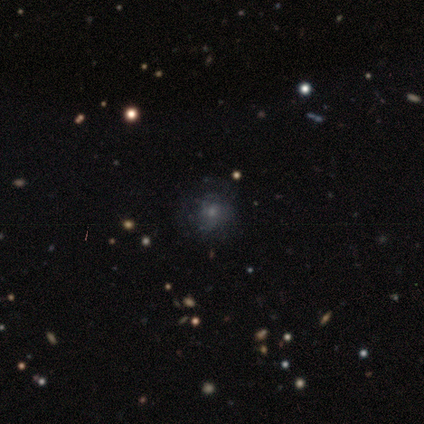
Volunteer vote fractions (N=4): smooth-or-featured: smooth: 75% | featured or disk: 25% | star or artifact: 0%
  how-rounded: round: 67% | in between: 33% | cigar-shaped: 0%
  merging: none: 50% | minor disturbance: 25% | merger: 25% | major disturbance: 0%